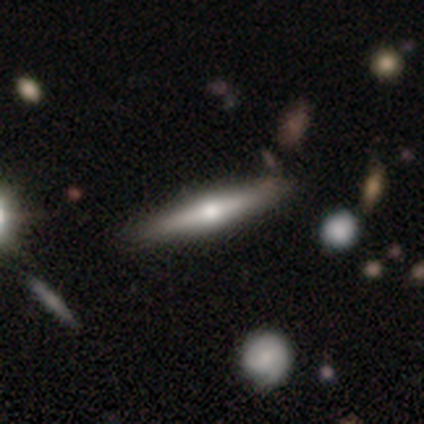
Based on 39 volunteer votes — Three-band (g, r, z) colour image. It shows a featured or disk galaxy (64%) viewed edge-on (92%) with a rounded central bulge (96%). Merging: none (74%).